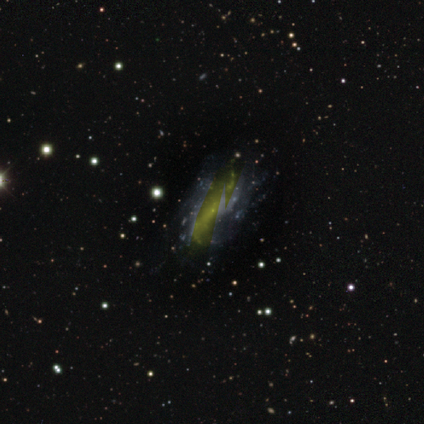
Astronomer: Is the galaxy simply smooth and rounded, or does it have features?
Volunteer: featured or disk — 62%.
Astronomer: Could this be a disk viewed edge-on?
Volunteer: no — 100%.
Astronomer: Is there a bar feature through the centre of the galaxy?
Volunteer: no — 80%.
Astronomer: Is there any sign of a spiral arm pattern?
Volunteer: yes — 60% (runner-up: no, 40%).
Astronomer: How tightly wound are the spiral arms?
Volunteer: loose — 67%.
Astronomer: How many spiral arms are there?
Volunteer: can't tell — 100%.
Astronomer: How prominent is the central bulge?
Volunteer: small — 60% (runner-up: none, 40%).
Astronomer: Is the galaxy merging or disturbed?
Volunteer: none — 50%, tied with minor disturbance at 50%.